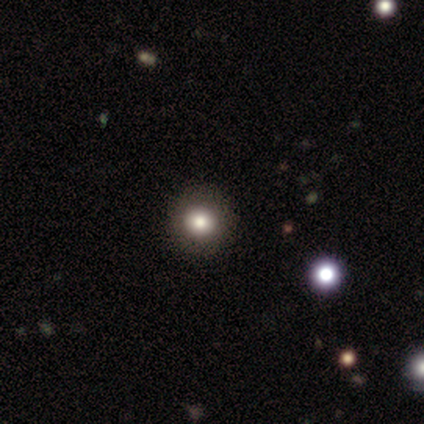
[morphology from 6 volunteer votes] Smooth or featured?
  - smooth: 67% *
  - featured or disk: 17%
  - star or artifact: 17%
How rounded?
  - round: 100% *
  - in between: 0%
  - cigar-shaped: 0%
Merging?
  - none: 100% *
  - minor disturbance: 0%
  - major disturbance: 0%
  - merger: 0%